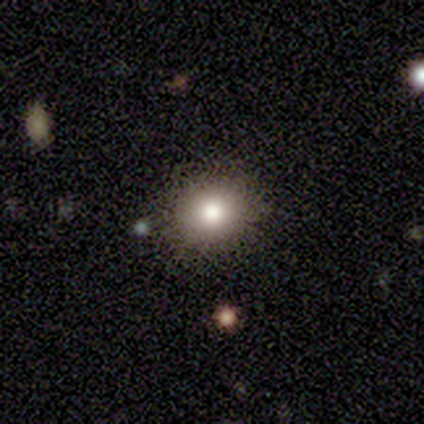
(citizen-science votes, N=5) Volunteers were most divided on "smooth or featured": smooth: 60%, star or artifact: 40%, featured or disk: 0%. More confident: merging — none (100%); how rounded — round (67%).